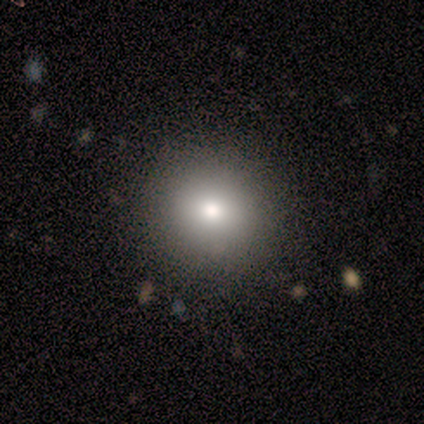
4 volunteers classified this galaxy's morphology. Smooth or featured: smooth — 75% (featured or disk — 25%)
How rounded: round — 100%
Merging: none — 100%